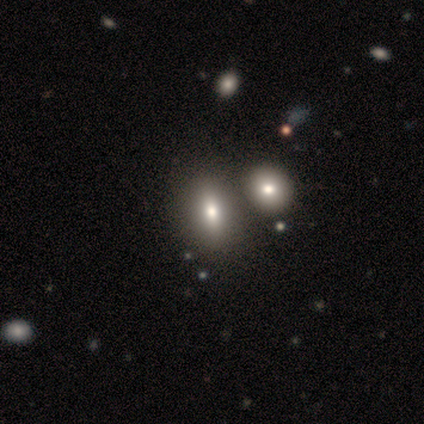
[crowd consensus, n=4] A smooth galaxy with no disk features (100%) that is in between round and cigar-shaped (75%).

Vote fractions:
- Smooth or featured? smooth: 100% / featured or disk: 0% / star or artifact: 0%
- How rounded? in between: 75% / round: 25% / cigar-shaped: 0%
- Merging? merger: 50% / none: 25% / minor disturbance: 25% / major disturbance: 0%